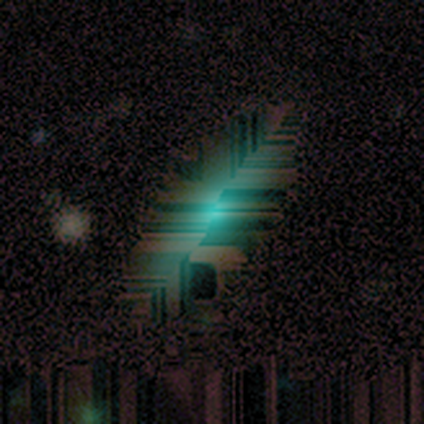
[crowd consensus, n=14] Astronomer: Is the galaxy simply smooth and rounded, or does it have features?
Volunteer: star or artifact — 50% (runner-up: smooth, 29%).